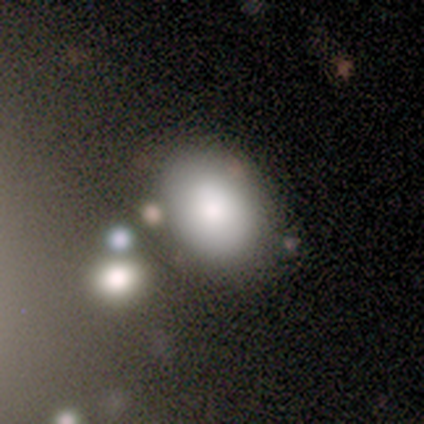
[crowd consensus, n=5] A smooth galaxy with no disk features (40%, tied with star or artifact) that is in between round and cigar-shaped (100%). Merging: none (100%).